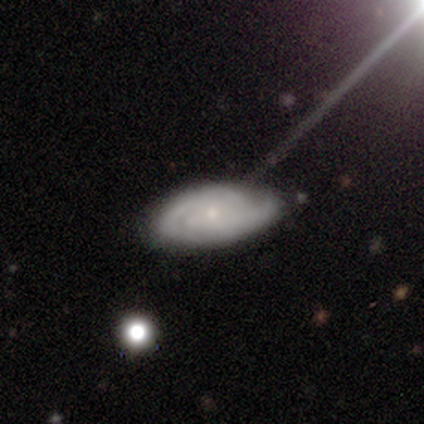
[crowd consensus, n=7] A featured or disk galaxy (71%) with no bar (100%), 2 (67%) tight (67%) spiral arms (100%) and a small central bulge (100%).

Vote fractions:
- Smooth or featured? featured or disk: 71% / smooth: 29% / star or artifact: 0%
- Edge-on disk? no: 60% / yes: 40%
- Bar? no: 100% / strong: 0% / weak: 0%
- Spiral arms? yes: 100% / no: 0%
- Spiral winding? tight: 67% / medium: 33% / loose: 0%
- Spiral arm count? 2: 67% / can't tell: 33% / 1: 0% / 3: 0% / 4: 0% / more than 4: 0%
- Bulge size? small: 100% / dominant: 0% / large: 0% / moderate: 0% / none: 0%
- Merging? minor disturbance: 57% / none: 43% / major disturbance: 0% / merger: 0%